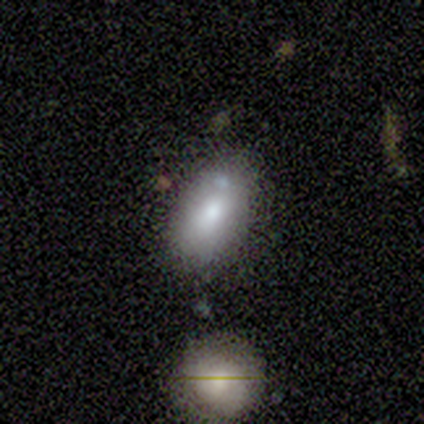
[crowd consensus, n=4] A smooth galaxy with no disk features (75%) that is in between round and cigar-shaped (67%). Merging: none (50%).